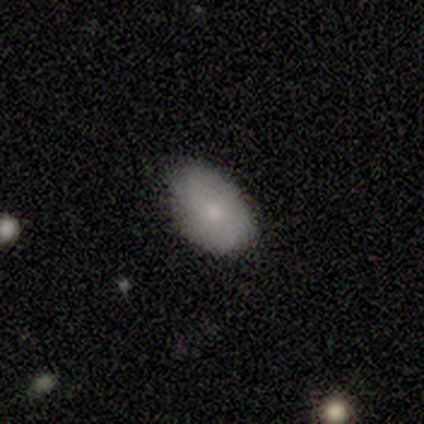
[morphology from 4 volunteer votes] type=smooth (100%); roundness=in between (100%); merging=none (100%).